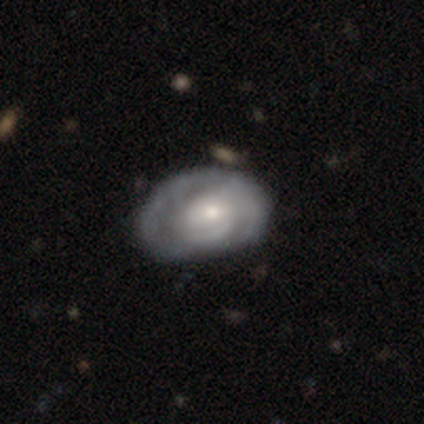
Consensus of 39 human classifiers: Smooth or featured?
  - featured or disk: 79% *
  - smooth: 15%
  - star or artifact: 5%
Edge-on disk?
  - no: 97% *
  - yes: 3%
Bar?
  - no: 63% *
  - weak: 37%
  - strong: 0%
Spiral arms?
  - yes: 83% *
  - no: 17%
Spiral winding?
  - tight: 60% *
  - medium: 36%
  - loose: 4%
Spiral arm count?
  - can't tell: 44% *
  - 2: 36%
  - 3: 12%
  - 1: 4%
  - 4: 4%
  - more than 4: 0%
Bulge size?
  - moderate: 53% *
  - small: 43%
  - large: 3%
  - dominant: 0%
  - none: 0%
Merging?
  - none: 68% *
  - minor disturbance: 24%
  - major disturbance: 8%
  - merger: 0%